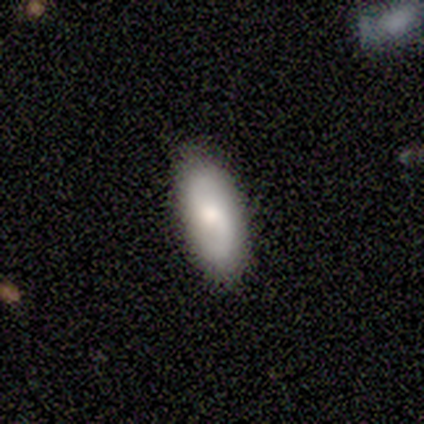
Volunteers were most divided on "how rounded": in between: 50%, round: 25%, cigar-shaped: 25%. More confident: merging — none (100%); smooth or featured — smooth (80%).